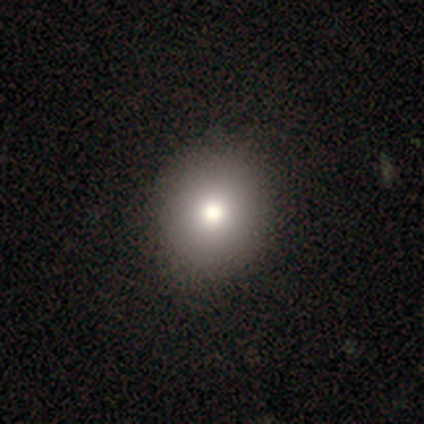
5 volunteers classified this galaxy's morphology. type=smooth (60%); roundness=round (100%); merging=none (75%).